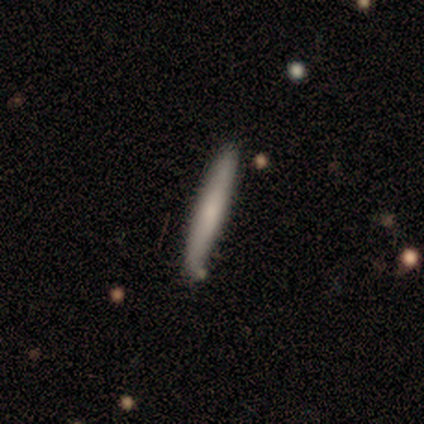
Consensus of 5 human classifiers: Smooth or featured? smooth (100%)
How rounded? cigar-shaped (100%)
Merging? none (80%)